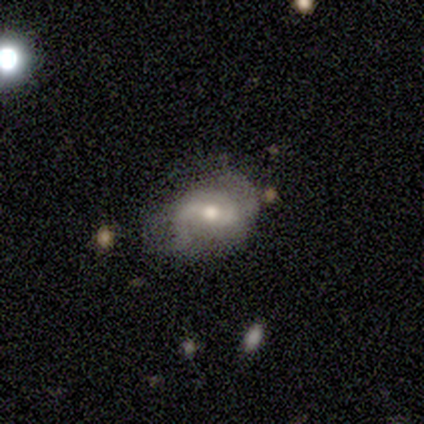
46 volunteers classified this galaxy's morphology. Overall: featured or disk (83%). Edge-on disk: no (100%). Bar: weak (53%; strong 29%). Spiral arms: yes (92%). Spiral arm count: 2 (91%). Spiral winding: medium (49%; loose 34%). Bulge size: moderate (76%). Merging: none (55%; minor disturbance 27%).